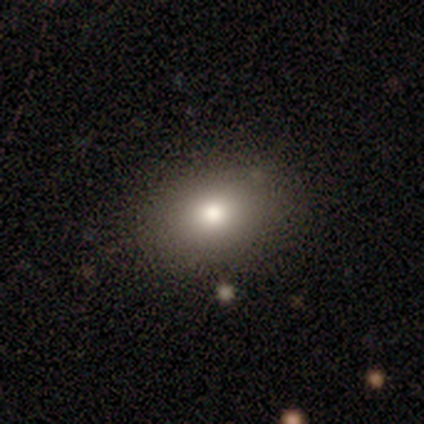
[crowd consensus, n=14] smooth-or-featured: smooth: 64% | featured or disk: 21% | star or artifact: 14%
  how-rounded: in between: 67% | round: 33% | cigar-shaped: 0%
  merging: none: 92% | minor disturbance: 8% | major disturbance: 0% | merger: 0%